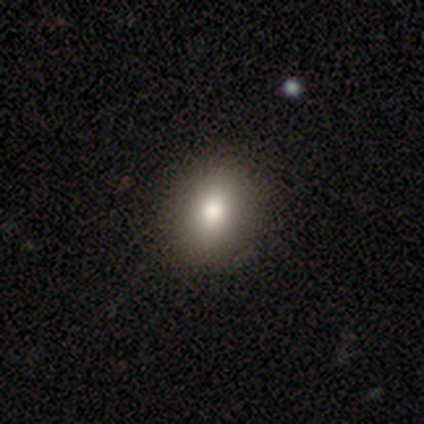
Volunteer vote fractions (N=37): A smooth galaxy with no disk features (81%) that is in between round and cigar-shaped (60%). Merging: none (61%).